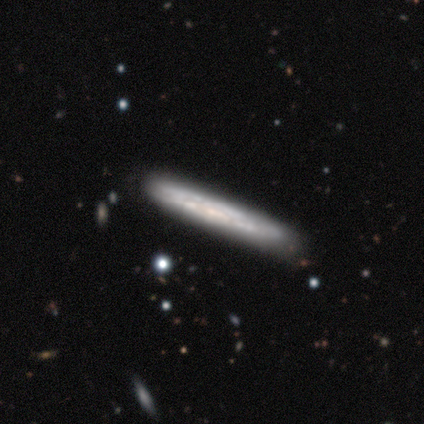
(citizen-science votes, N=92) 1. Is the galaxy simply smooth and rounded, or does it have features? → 63% featured or disk, 28% smooth, 9% star or artifact.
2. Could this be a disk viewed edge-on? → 79% yes, 21% no.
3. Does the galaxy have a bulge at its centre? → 89% none, 7% rounded, 4% boxy.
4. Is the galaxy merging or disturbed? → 77% none, 15% minor disturbance, 5% major disturbance, 2% merger.